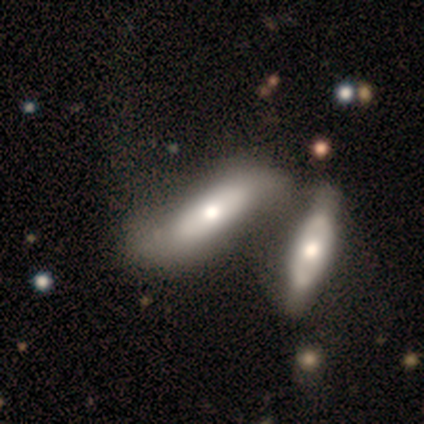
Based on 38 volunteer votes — Morphology: type=smooth (61%); roundness=cigar-shaped (57%); merging=merger (61%).